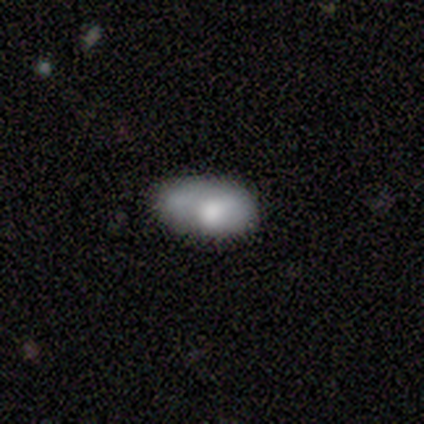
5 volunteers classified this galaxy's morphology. This appears to be a smooth galaxy with no disk features (100%) that is in between round and cigar-shaped (100%). Merging: minor disturbance (60%).